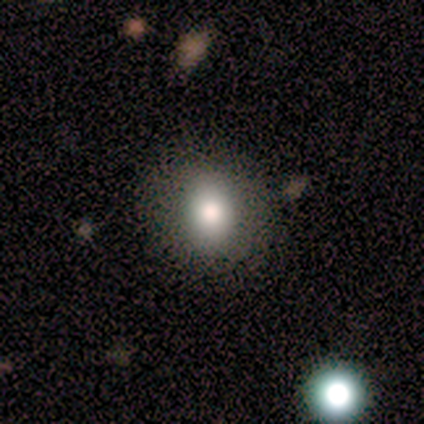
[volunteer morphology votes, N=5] smooth-or-featured: smooth: 60% | featured or disk: 20% | star or artifact: 20%
  how-rounded: round: 67% | in between: 33% | cigar-shaped: 0%
  merging: none: 75% | major disturbance: 25% | minor disturbance: 0% | merger: 0%